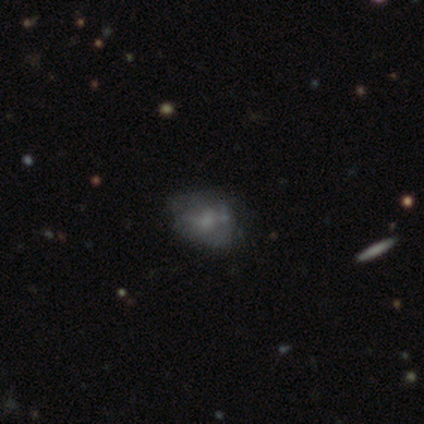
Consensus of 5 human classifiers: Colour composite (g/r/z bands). It shows a featured or disk galaxy (80%) with no bar (100%), no spiral arms (100%) and a small central bulge (50%, tied with none). Merging: none (75%).